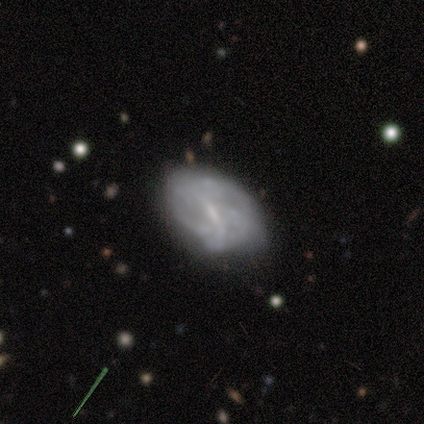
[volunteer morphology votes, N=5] Smooth or featured: featured or disk — 80% (smooth — 20%)
Edge-on disk: no — 100%
Bar: no — 50% (strong — 25%)
Spiral arms: no — 100%
Bulge size: small — 75% (none — 25%)
Merging: minor disturbance — 60% (none — 40%)